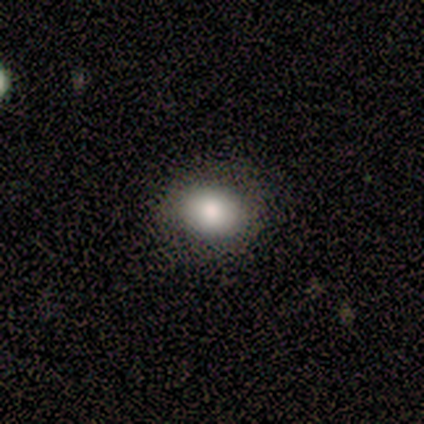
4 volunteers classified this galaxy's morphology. Smooth or featured? 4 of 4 (100%) said smooth. How rounded? 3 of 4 (75%) said in between. Merging? 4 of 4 (100%) said none.